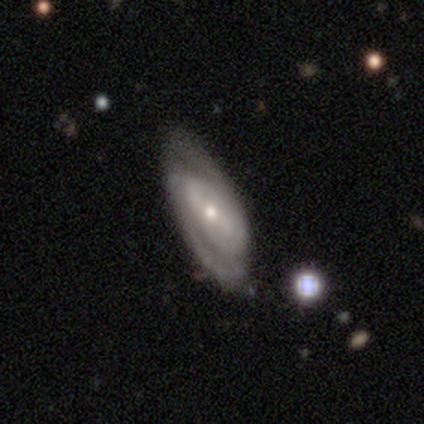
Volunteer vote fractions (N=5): Morphology: type=featured or disk (100%); edge-on=no (100%); bar=strong (80%); spiral arms=yes (100%); winding=tight (60%); arm count=2 (60%); bulge=moderate (60%); merging=none (80%).